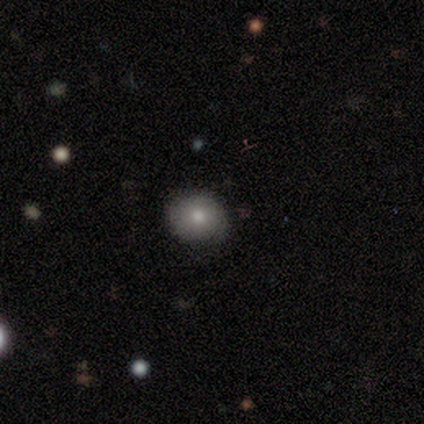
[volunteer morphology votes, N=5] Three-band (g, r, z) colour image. It shows a smooth galaxy with no disk features (100%) that is round (100%). Merging: none (100%).